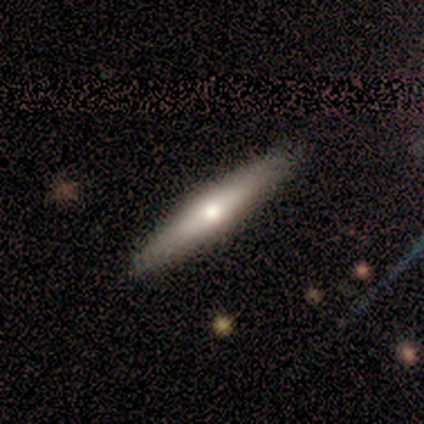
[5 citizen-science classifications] smooth-or-featured: featured or disk: 60% | smooth: 20% | star or artifact: 20%
  disk-edge-on: yes: 100% | no: 0%
    edge-on-bulge: rounded: 100% | boxy: 0% | none: 0%
  merging: none: 100% | minor disturbance: 0% | major disturbance: 0% | merger: 0%